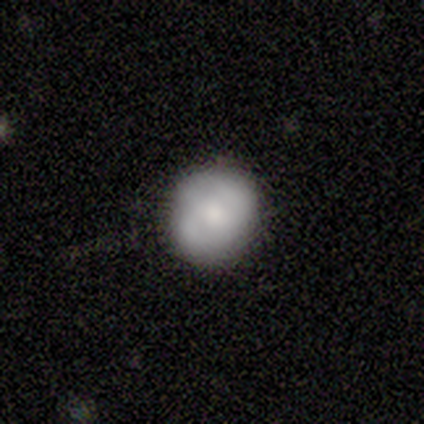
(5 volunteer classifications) Volunteers were most divided on "smooth or featured" (2-way tie): featured or disk: 40%, star or artifact: 40%, smooth: 20%; "spiral arms" (2-way tie): yes: 50%, no: 50%. More confident: edge-on disk — no (100%); bar — no (100%); spiral winding — tight (100%); spiral arm count — 2 (100%); bulge size — moderate (100%); merging — none (67%).